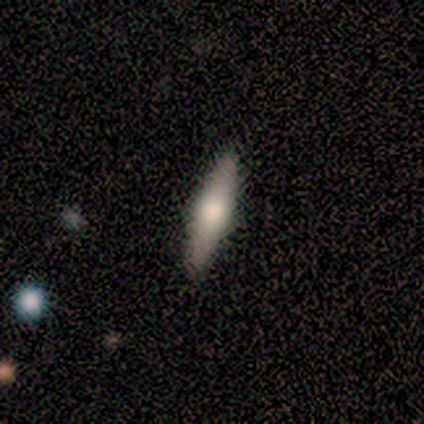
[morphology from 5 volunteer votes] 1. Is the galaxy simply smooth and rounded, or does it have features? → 60% featured or disk, 40% smooth, 0% star or artifact.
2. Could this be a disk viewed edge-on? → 100% yes, 0% no.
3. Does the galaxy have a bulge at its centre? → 100% rounded, 0% boxy, 0% none.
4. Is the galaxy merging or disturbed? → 80% none, 20% minor disturbance, 0% major disturbance, 0% merger.